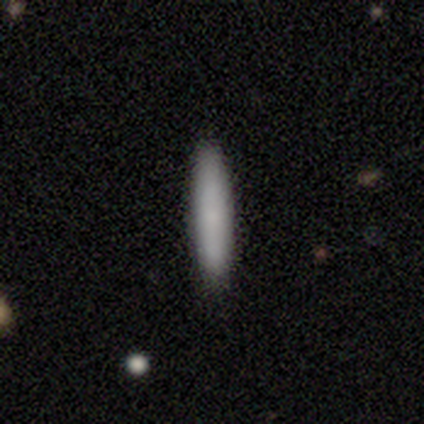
A smooth galaxy with no disk features (100%) that is cigar-shaped (100%).

Vote fractions:
- Smooth or featured? smooth: 100% / featured or disk: 0% / star or artifact: 0%
- How rounded? cigar-shaped: 100% / round: 0% / in between: 0%
- Merging? none: 100% / minor disturbance: 0% / major disturbance: 0% / merger: 0%